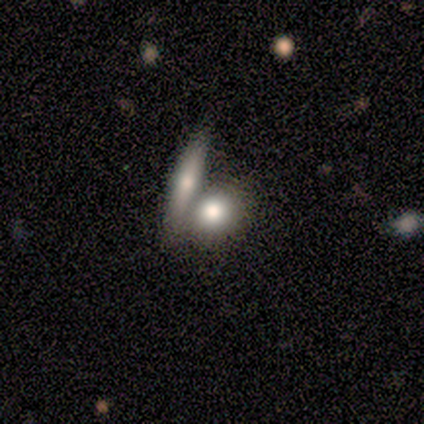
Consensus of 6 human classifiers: smooth 100%, featured or disk 0%, star or artifact 0%. Down the decision tree: how rounded — round (67%); merging — merger (50%).